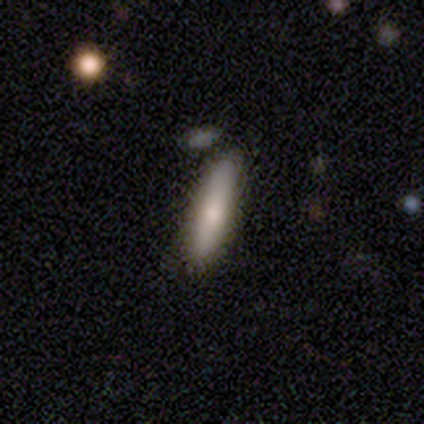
Smooth or featured? 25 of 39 (64%) said smooth. How rounded? 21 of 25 (84%) said cigar-shaped. Merging? 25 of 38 (66%) said none.